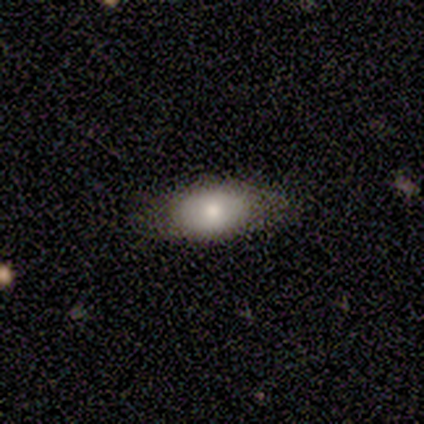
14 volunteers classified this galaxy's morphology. Volunteers were most divided on "smooth or featured": smooth: 50%, featured or disk: 36%, star or artifact: 14%. More confident: how rounded — in between (100%); merging — none (83%).